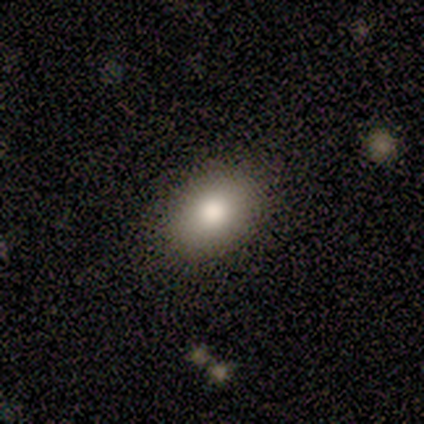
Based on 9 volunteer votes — smooth 89%, star or artifact 11%, featured or disk 0%. Down the decision tree: how rounded — in between (88%); merging — none (100%).